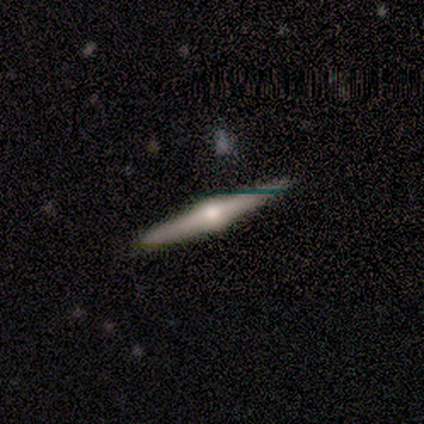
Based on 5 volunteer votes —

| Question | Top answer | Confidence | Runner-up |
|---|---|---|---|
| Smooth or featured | featured or disk | 100% | — |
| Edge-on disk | yes | 100% | — |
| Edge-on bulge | rounded | 100% | — |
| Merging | none | 100% | — |